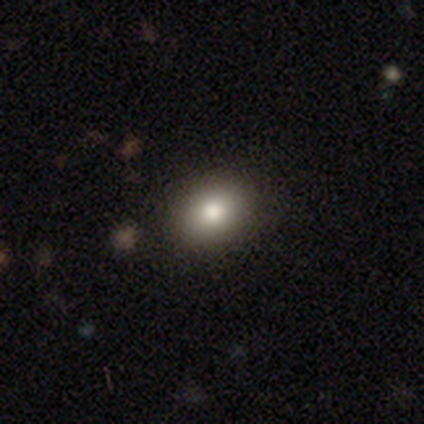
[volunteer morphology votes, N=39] Smooth or featured?
  - smooth: 87% *
  - featured or disk: 13%
  - star or artifact: 0%
How rounded?
  - round: 50% * (tied)
  - in between: 50% * (tied)
  - cigar-shaped: 0%
Merging?
  - none: 100% *
  - minor disturbance: 0%
  - major disturbance: 0%
  - merger: 0%